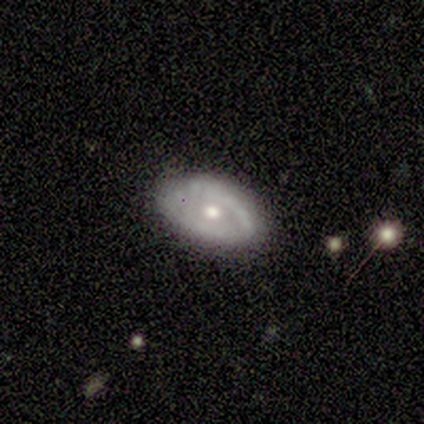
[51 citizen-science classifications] Smooth or featured? featured or disk (63%)
Edge-on disk? no (91%)
Bar? no (93%)
Spiral arms? no (55%)
Bulge size? moderate (86%)
Merging? none (70%)